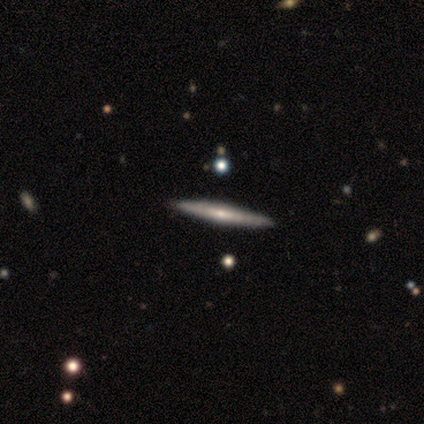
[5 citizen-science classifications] smooth_or_featured: featured or disk (p=1.00)
disk_edge_on: yes (p=1.00)
edge_on_bulge: rounded (p=0.60) [alt: none p=0.40]
merging: none (p=1.00)